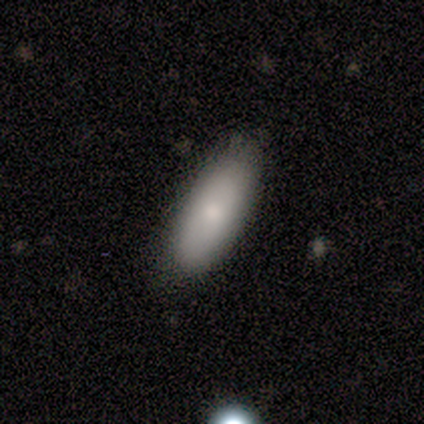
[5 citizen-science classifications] A smooth galaxy with no disk features (80%) that is in between round and cigar-shaped (75%). Merging: none (100%).